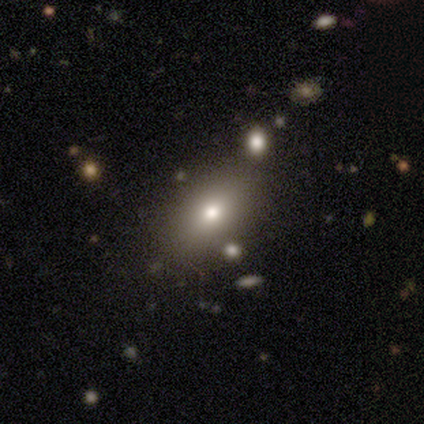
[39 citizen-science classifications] Smooth or featured? 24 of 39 (62%) said smooth. How rounded? 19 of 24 (79%) said in between. Merging? 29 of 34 (85%) said none.